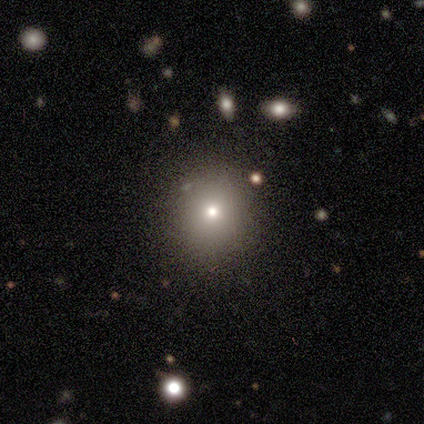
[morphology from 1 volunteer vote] A featured or disk galaxy (100%) with no bar (100%), no spiral arms (100%) and a moderate central bulge (100%).

Vote fractions:
- Smooth or featured? featured or disk: 100% / smooth: 0% / star or artifact: 0%
- Edge-on disk? no: 100% / yes: 0%
- Bar? no: 100% / strong: 0% / weak: 0%
- Spiral arms? no: 100% / yes: 0%
- Bulge size? moderate: 100% / dominant: 0% / large: 0% / small: 0% / none: 0%
- Merging? none: 100% / minor disturbance: 0% / major disturbance: 0% / merger: 0%